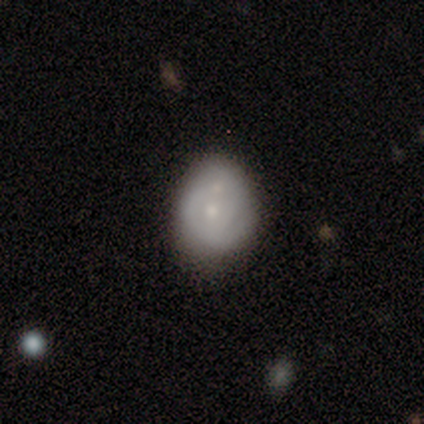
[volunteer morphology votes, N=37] Smooth or featured? 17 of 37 (46%) said smooth. How rounded? 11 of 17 (65%) said round. Merging? 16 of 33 (48%) said none.